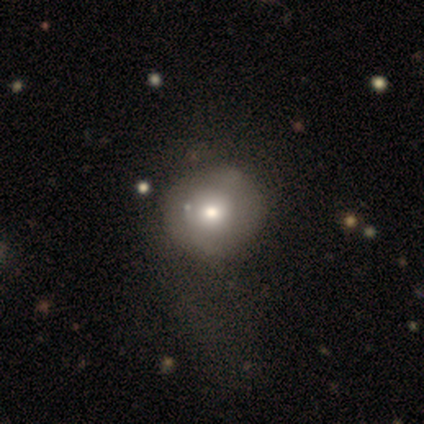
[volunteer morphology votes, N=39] This is likely a smooth galaxy (72%). How rounded: clearly round (96%). Merging: likely none (71%).